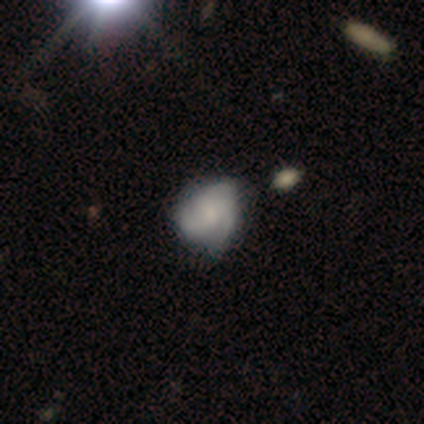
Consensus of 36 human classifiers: Smooth or featured? 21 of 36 (58%) said featured or disk. Edge-on disk? 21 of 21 (100%) said no. Bar? 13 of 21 (62%) said no. Spiral arms? 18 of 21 (86%) said yes. Spiral winding? 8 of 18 (44%) said medium. Spiral arm count? 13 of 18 (72%) said 3. Bulge size? 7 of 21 (33%) said small. Merging? 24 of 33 (73%) said none.